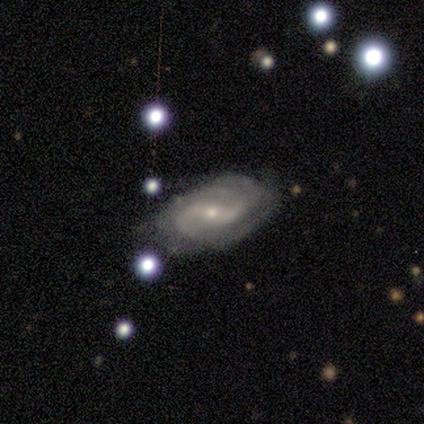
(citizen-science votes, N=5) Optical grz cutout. It shows a featured or disk galaxy (60%) with a weak bar (67%), 2 (67%) tight (100%) spiral arms (100%) and a small central bulge (100%). Merging: none (75%).